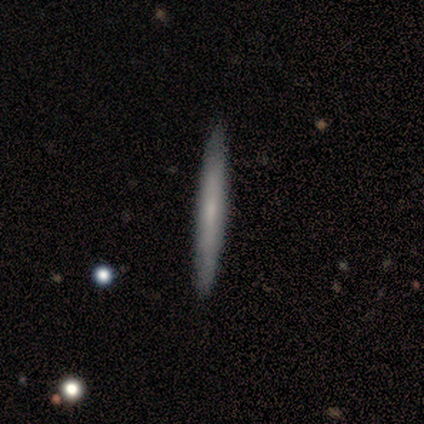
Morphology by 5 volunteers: This appears to be a smooth galaxy with no disk features (60%) that is cigar-shaped (100%). Merging: none (100%).